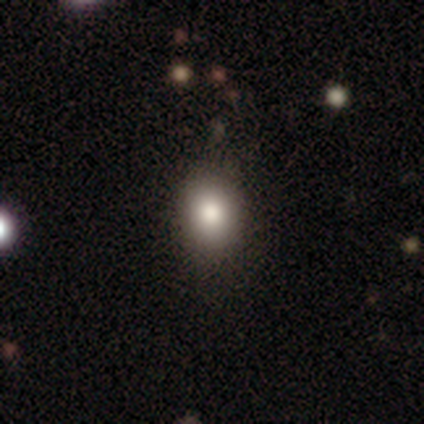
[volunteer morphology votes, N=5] smooth-or-featured: smooth: 80% | featured or disk: 20% | star or artifact: 0%
  how-rounded: in between: 75% | round: 25% | cigar-shaped: 0%
  merging: none: 80% | minor disturbance: 20% | major disturbance: 0% | merger: 0%